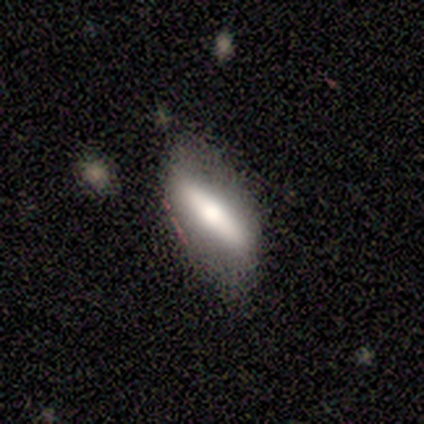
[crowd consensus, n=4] A smooth galaxy with no disk features (75%) that is in between round and cigar-shaped (100%).

Vote fractions:
- Smooth or featured? smooth: 75% / featured or disk: 25% / star or artifact: 0%
- How rounded? in between: 100% / round: 0% / cigar-shaped: 0%
- Merging? none: 75% / minor disturbance: 25% / major disturbance: 0% / merger: 0%